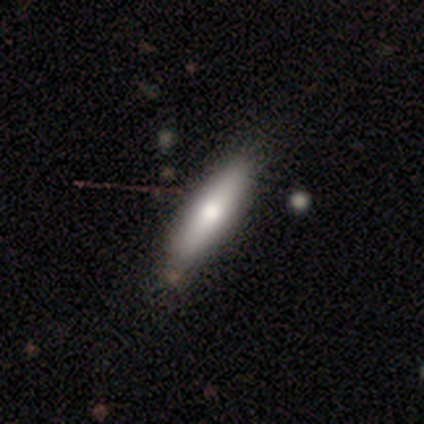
smooth 100%, featured or disk 0%, star or artifact 0%. Down the decision tree: how rounded — cigar-shaped (80%); merging — none (80%).